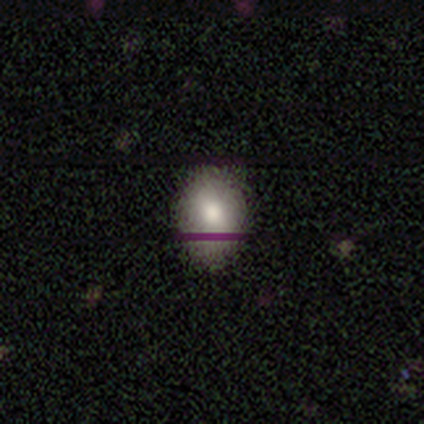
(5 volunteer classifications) This appears to be a smooth galaxy with no disk features (80%) that is in between round and cigar-shaped (75%). Merging: none (100%).